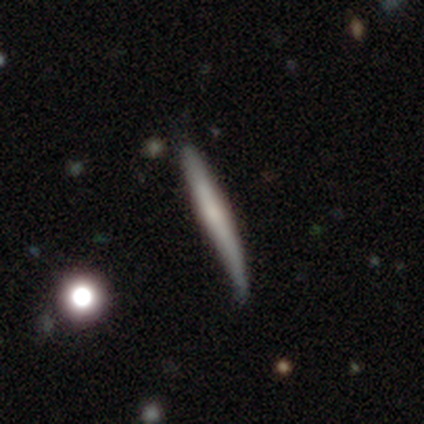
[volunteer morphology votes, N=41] Smooth or featured? smooth (61%)
How rounded? cigar-shaped (92%)
Merging? none (56%)